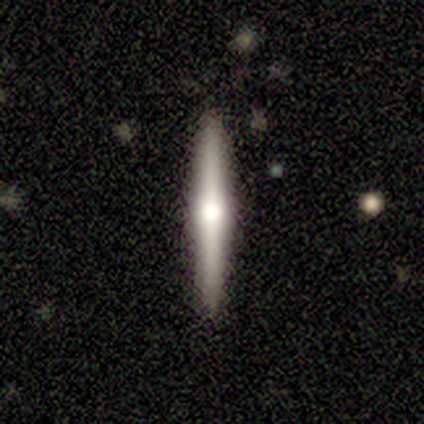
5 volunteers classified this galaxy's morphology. Smooth or featured?
  - smooth: 60% *
  - featured or disk: 40%
  - star or artifact: 0%
How rounded?
  - cigar-shaped: 100% *
  - round: 0%
  - in between: 0%
Merging?
  - none: 100% *
  - minor disturbance: 0%
  - major disturbance: 0%
  - merger: 0%